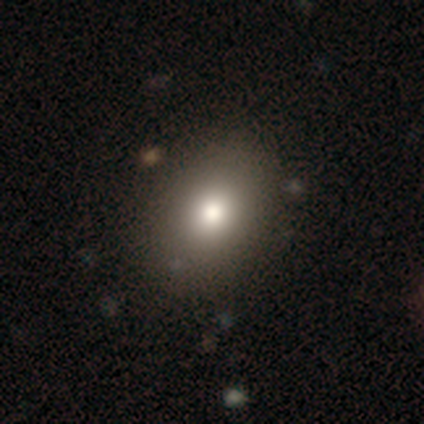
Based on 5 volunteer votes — smooth 100%, featured or disk 0%, star or artifact 0%. Down the decision tree: how rounded — in between (80%); merging — none (100%).